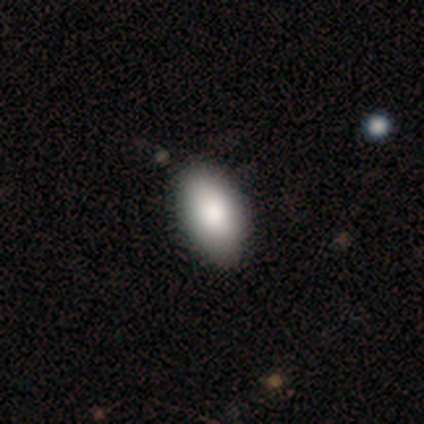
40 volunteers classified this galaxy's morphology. This is clearly a smooth galaxy (88%). How rounded: clearly in between (100%). Merging: possibly none (54%).